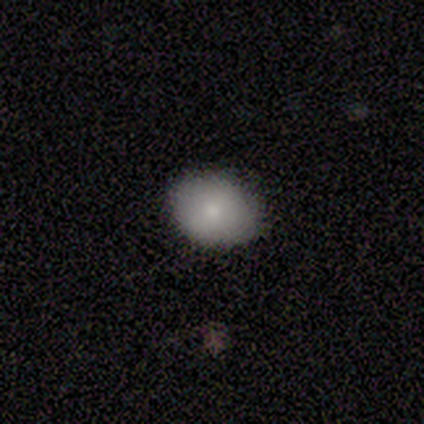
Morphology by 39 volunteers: type=smooth (87%); roundness=round (53%); merging=none (95%).